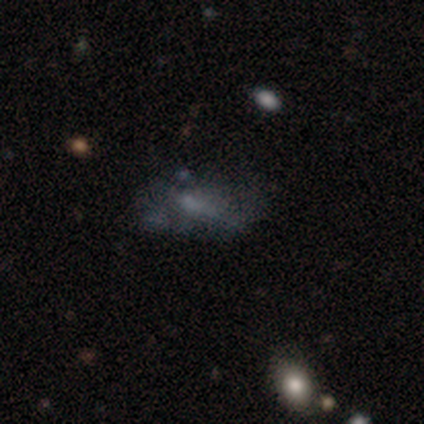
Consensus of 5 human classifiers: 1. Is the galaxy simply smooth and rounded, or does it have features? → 100% featured or disk, 0% smooth, 0% star or artifact.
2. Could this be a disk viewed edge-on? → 100% no, 0% yes.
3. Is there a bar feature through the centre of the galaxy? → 60% no, 40% weak, 0% strong.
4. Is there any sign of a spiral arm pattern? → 100% no, 0% yes.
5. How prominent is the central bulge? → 60% small, 40% none, 0% dominant, 0% large, 0% moderate.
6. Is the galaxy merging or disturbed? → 80% none, 20% minor disturbance, 0% major disturbance, 0% merger.